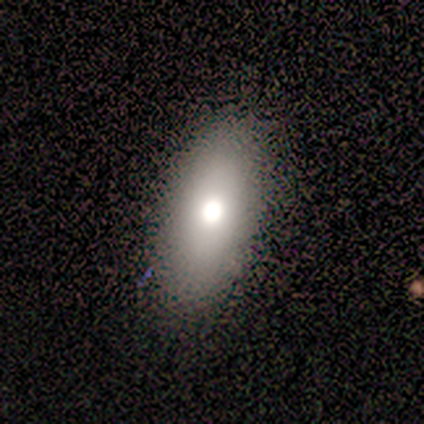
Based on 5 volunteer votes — Morphology: type=smooth (60%); roundness=in between (67%); merging=none (80%).